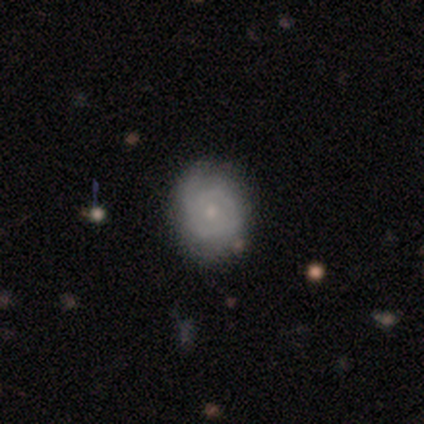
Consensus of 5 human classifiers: Smooth or featured?
  - featured or disk: 80% *
  - smooth: 20%
  - star or artifact: 0%
Edge-on disk?
  - no: 100% *
  - yes: 0%
Bar?
  - no: 100% *
  - strong: 0%
  - weak: 0%
Spiral arms?
  - yes: 50% * (tied)
  - no: 50% * (tied)
Spiral winding?
  - tight: 50% * (tied)
  - medium: 50% * (tied)
  - loose: 0%
Spiral arm count?
  - 2: 100% *
  - 1: 0%
  - 3: 0%
  - 4: 0%
  - more than 4: 0%
  - can't tell: 0%
Bulge size?
  - small: 75% *
  - moderate: 25%
  - dominant: 0%
  - large: 0%
  - none: 0%
Merging?
  - none: 100% *
  - minor disturbance: 0%
  - major disturbance: 0%
  - merger: 0%